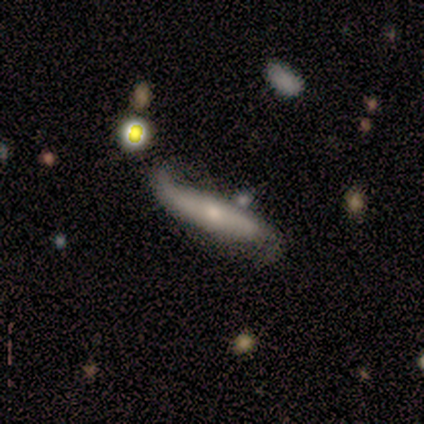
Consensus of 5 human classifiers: Smooth or featured? featured or disk (60%)
Edge-on disk? no (67%)
Bar? weak (50%, tied with no)
Spiral arms? yes (100%)
Spiral winding? medium (50%, tied with loose)
Spiral arm count? 2 (100%)
Bulge size? moderate (50%, tied with none)
Merging? none (40%, tied with major disturbance)